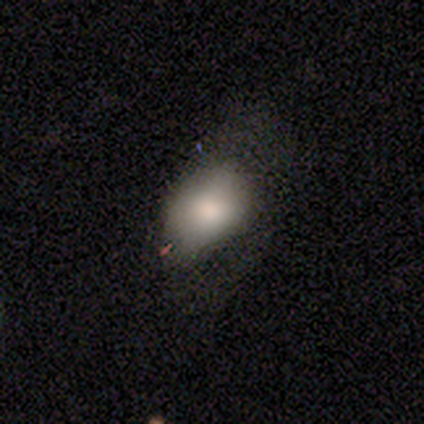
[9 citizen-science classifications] Smooth or featured? smooth (100%)
How rounded? in between (78%)
Merging? minor disturbance (56%)